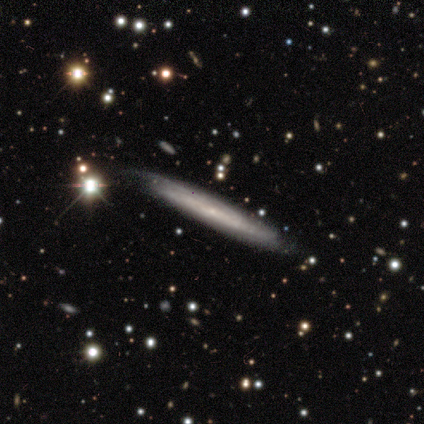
Overall: featured or disk (60%; smooth 40%). Edge-on disk: no (67%; yes 33%). Bar: no (100%). Spiral arms: yes (100%). Spiral arm count: can't tell (100%). Spiral winding: tight (100%). Bulge size: small (100%). Merging: none (100%).